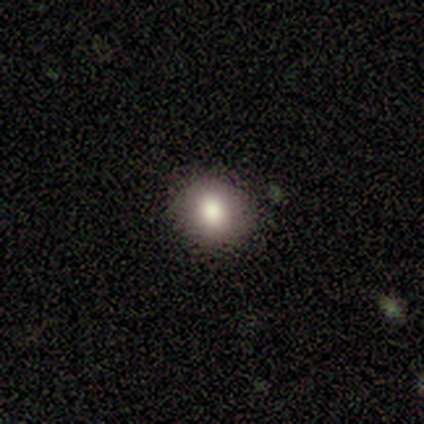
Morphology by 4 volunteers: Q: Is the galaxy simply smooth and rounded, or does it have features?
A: smooth — 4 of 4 (100%).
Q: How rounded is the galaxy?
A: round — 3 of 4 (75%).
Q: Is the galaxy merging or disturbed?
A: none — 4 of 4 (100%).